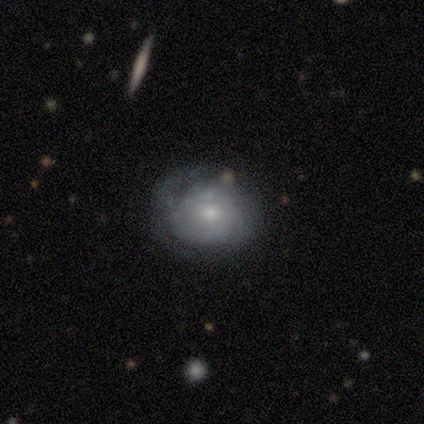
smooth 50% (tied), featured or disk 50% (tied), star or artifact 0%. Down the decision tree: how rounded — round (100%); merging — minor disturbance (75%).